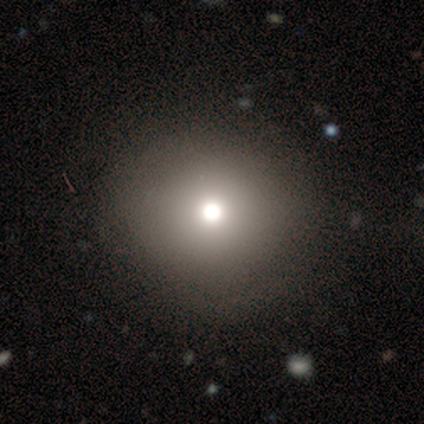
smooth_or_featured: smooth (p=0.50) [tied with: featured or disk p=0.50]
how_rounded: round (p=0.50) [tied with: in between p=0.50]
merging: none (p=0.75) [alt: major disturbance p=0.25]